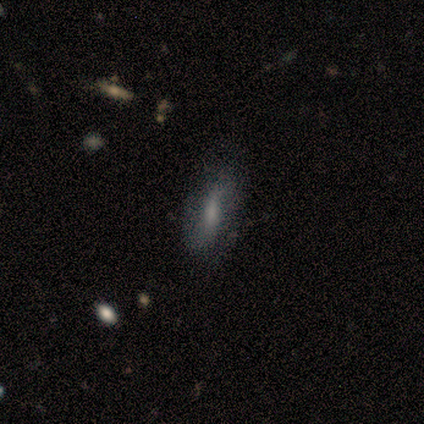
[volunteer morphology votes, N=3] type=star or artifact (67%).